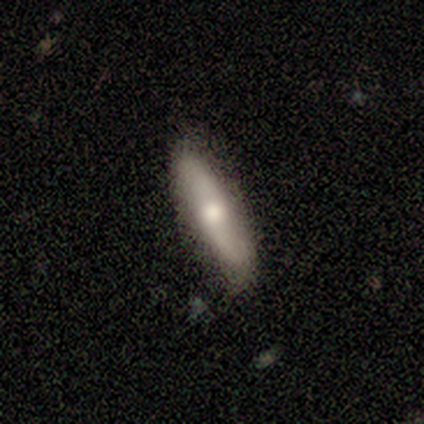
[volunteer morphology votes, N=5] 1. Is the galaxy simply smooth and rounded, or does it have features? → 100% smooth, 0% featured or disk, 0% star or artifact.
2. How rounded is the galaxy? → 60% cigar-shaped, 40% in between, 0% round.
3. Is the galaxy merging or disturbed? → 80% none, 20% minor disturbance, 0% major disturbance, 0% merger.